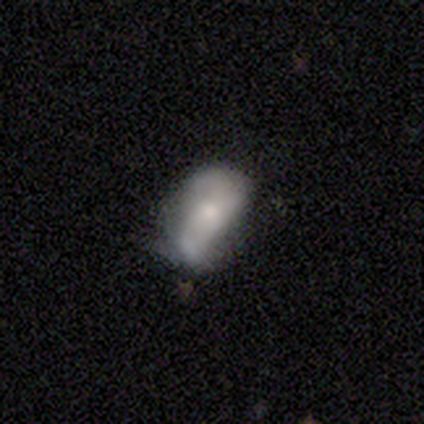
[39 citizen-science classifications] Smooth or featured?
  - smooth: 54% *
  - featured or disk: 41%
  - star or artifact: 5%
How rounded?
  - in between: 90% *
  - round: 5%
  - cigar-shaped: 5%
Merging?
  - none: 51% *
  - minor disturbance: 30%
  - major disturbance: 16%
  - merger: 3%